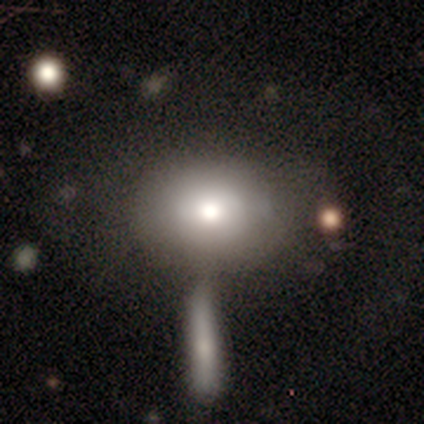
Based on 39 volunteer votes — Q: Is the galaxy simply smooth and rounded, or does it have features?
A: smooth — 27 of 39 (69%).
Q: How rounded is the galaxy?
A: in between — 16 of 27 (59%).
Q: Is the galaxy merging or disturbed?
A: none — 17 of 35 (49%).